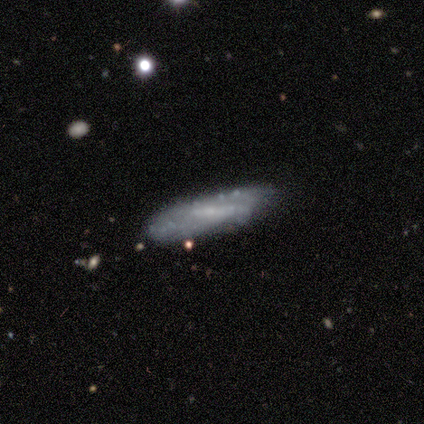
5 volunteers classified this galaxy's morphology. Q: Smooth or featured?
A: featured or disk (80%); runner-up: star or artifact (20%)
Q: Edge-on disk?
A: yes (50%); tied with: no (50%)
Q: Edge-on bulge?
A: none (100%)
Q: Merging?
A: none (75%); runner-up: minor disturbance (25%)